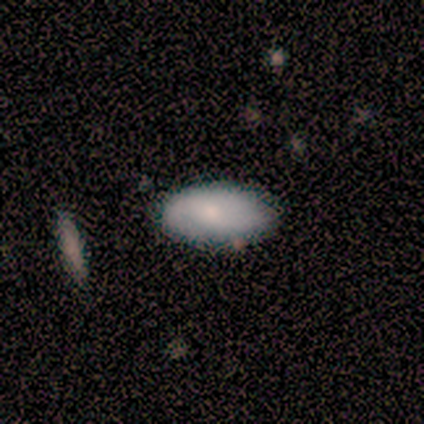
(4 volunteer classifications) Smooth or featured?
  - smooth: 75% *
  - featured or disk: 25%
  - star or artifact: 0%
How rounded?
  - in between: 100% *
  - round: 0%
  - cigar-shaped: 0%
Merging?
  - none: 75% *
  - minor disturbance: 25%
  - major disturbance: 0%
  - merger: 0%